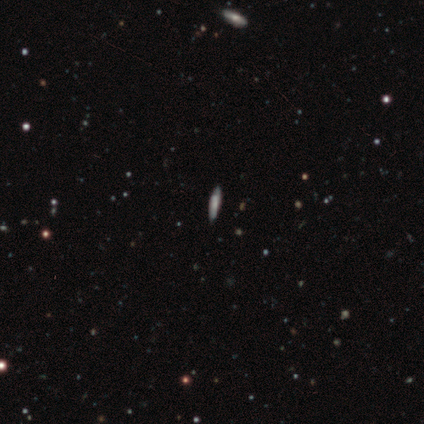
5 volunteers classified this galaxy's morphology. smooth-or-featured: smooth: 60% | featured or disk: 20% | star or artifact: 20%
  how-rounded: cigar-shaped: 100% | round: 0% | in between: 0%
  merging: none: 75% | minor disturbance: 25% | major disturbance: 0% | merger: 0%